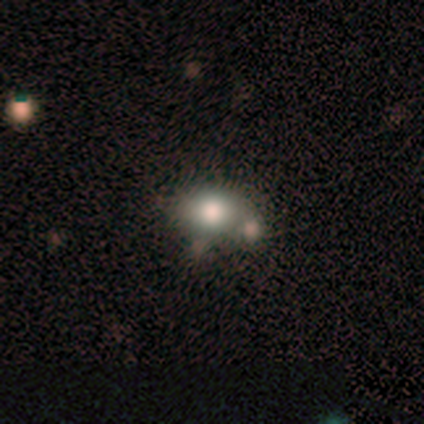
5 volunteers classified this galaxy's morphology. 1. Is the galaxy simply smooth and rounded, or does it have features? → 40% smooth (tied), 40% featured or disk (tied), 20% star or artifact.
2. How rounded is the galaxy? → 100% in between, 0% round, 0% cigar-shaped.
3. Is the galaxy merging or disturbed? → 75% merger, 25% none, 0% minor disturbance, 0% major disturbance.